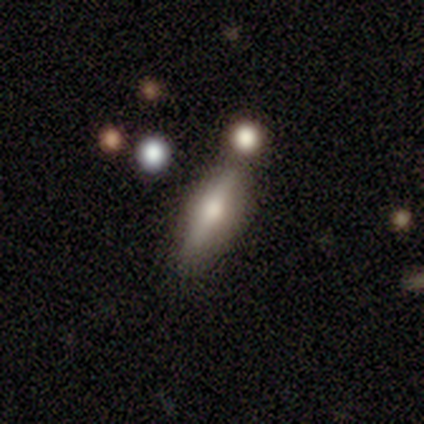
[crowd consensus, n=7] Q: Smooth or featured?
A: featured or disk (57%); runner-up: smooth (29%)
Q: Edge-on disk?
A: yes (100%)
Q: Edge-on bulge?
A: rounded (75%); runner-up: boxy (25%)
Q: Merging?
A: none (50%); runner-up: merger (33%)